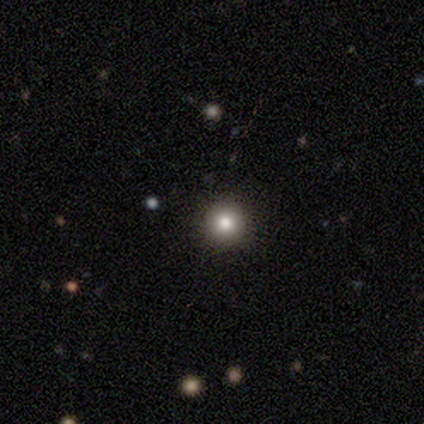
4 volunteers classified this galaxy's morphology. Smooth or featured?
  - smooth: 50% *
  - featured or disk: 25%
  - star or artifact: 25%
How rounded?
  - round: 100% *
  - in between: 0%
  - cigar-shaped: 0%
Merging?
  - none: 100% *
  - minor disturbance: 0%
  - major disturbance: 0%
  - merger: 0%